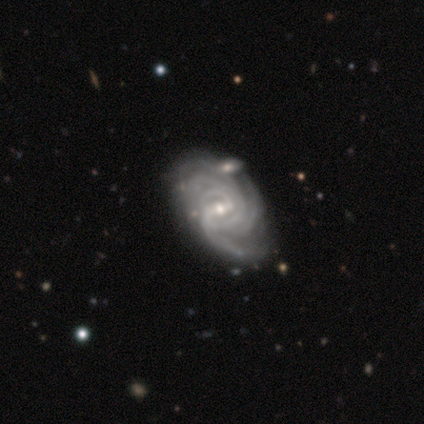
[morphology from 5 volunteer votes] This is clearly a featured or disk galaxy (100%). It is clearly not viewed edge-on (100%). Bar: likely strong (60%). Spiral arm pattern: clearly yes (100%). Spiral arm count: marginally can't tell (40%). Spiral winding: marginally tight (40%, tied with medium). Central bulge: clearly small (80%). Merging: clearly none (100%).